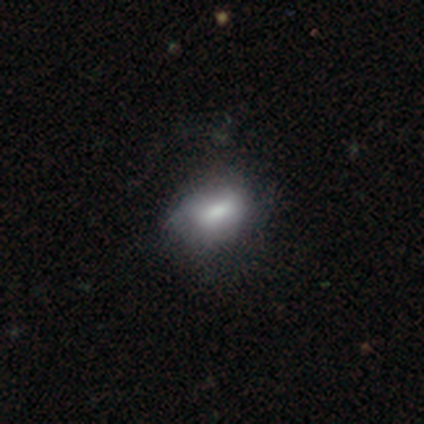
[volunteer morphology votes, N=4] Smooth or featured? smooth (75%)
How rounded? in between (67%)
Merging? none (100%)